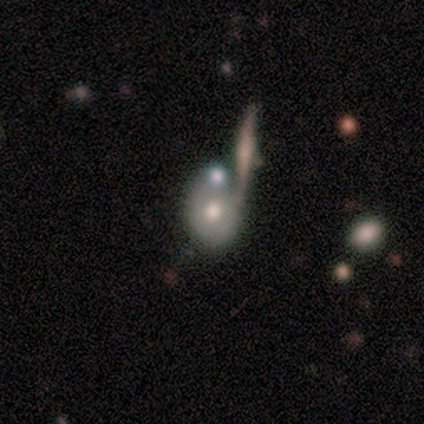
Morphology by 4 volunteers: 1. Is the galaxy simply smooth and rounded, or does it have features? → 75% smooth, 25% featured or disk, 0% star or artifact.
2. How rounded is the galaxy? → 100% in between, 0% round, 0% cigar-shaped.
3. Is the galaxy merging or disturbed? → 50% none (tied), 50% minor disturbance (tied), 0% major disturbance, 0% merger.